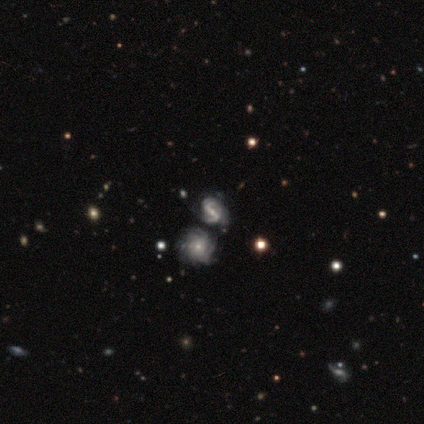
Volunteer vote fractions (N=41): Smooth or featured: featured or disk — 95% (star or artifact — 5%)
Edge-on disk: no — 100%
Bar: strong — 62% (weak — 21%)
Spiral arms: yes — 97% (no — 3%)
Spiral winding: tight — 34% (tied with medium — 34%)
Spiral arm count: 2 — 68% (can't tell — 21%)
Bulge size: small — 67% (moderate — 18%)
Merging: none — 44% (merger — 31%)